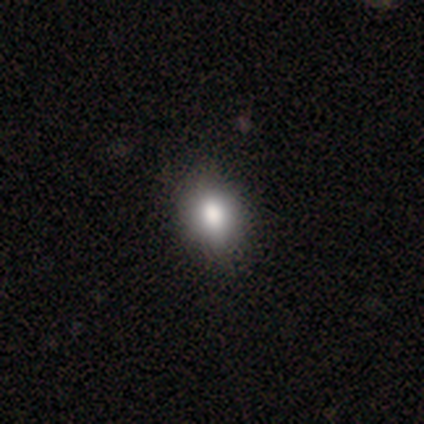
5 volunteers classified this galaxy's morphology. smooth_or_featured: smooth (p=1.00)
how_rounded: in between (p=0.80) [alt: round p=0.20]
merging: none (p=1.00)